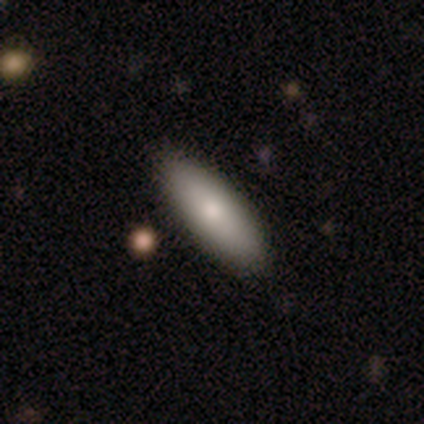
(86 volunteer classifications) A smooth galaxy with no disk features (86%) that is in between round and cigar-shaped (53%). Merging: none (80%).